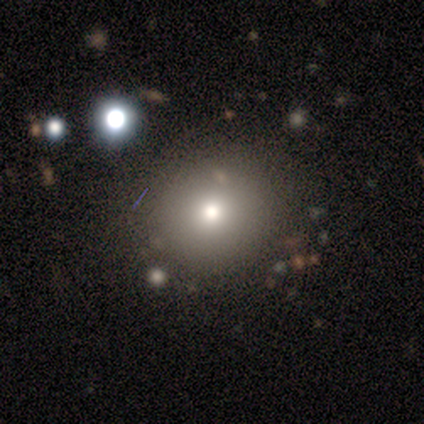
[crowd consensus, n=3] smooth-or-featured: star or artifact: 67% | smooth: 33% | featured or disk: 0%